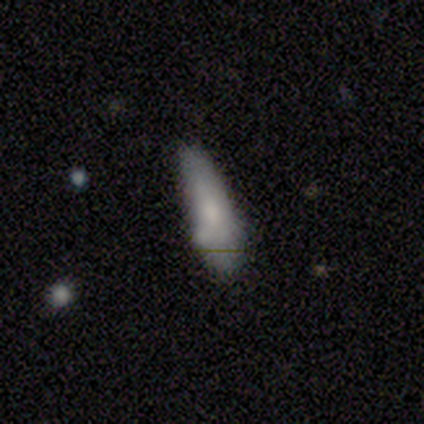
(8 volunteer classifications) smooth-or-featured: smooth: 62% | featured or disk: 38% | star or artifact: 0%
  how-rounded: in between: 60% | cigar-shaped: 40% | round: 0%
  merging: none: 50% (tied) | minor disturbance: 50% (tied) | major disturbance: 0% | merger: 0%